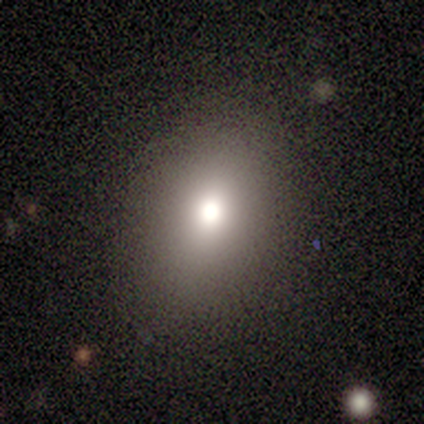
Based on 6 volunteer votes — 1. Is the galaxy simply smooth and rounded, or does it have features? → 50% smooth, 33% featured or disk, 17% star or artifact.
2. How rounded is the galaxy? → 100% round, 0% in between, 0% cigar-shaped.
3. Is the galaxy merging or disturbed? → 100% none, 0% minor disturbance, 0% major disturbance, 0% merger.